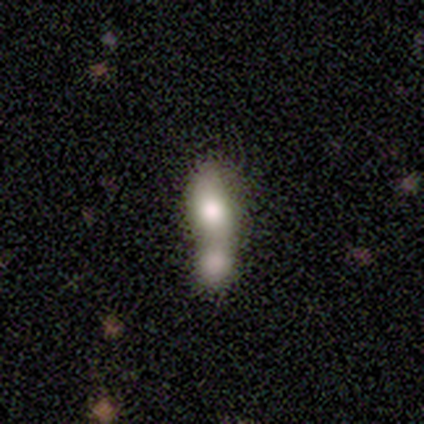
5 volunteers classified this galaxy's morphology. Volunteers were most divided on "how rounded": in between: 60%, cigar-shaped: 40%, round: 0%. More confident: smooth or featured — smooth (100%); merging — merger (100%).